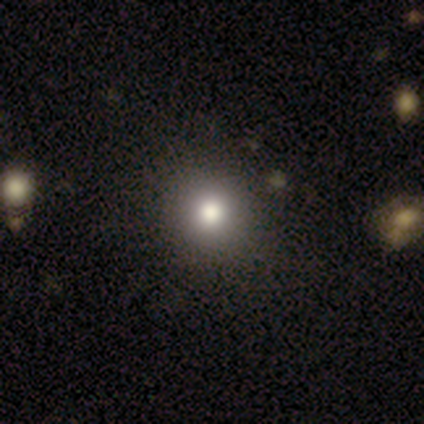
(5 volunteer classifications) Q: Smooth or featured?
A: smooth (100%)
Q: How rounded?
A: round (100%)
Q: Merging?
A: none (100%)